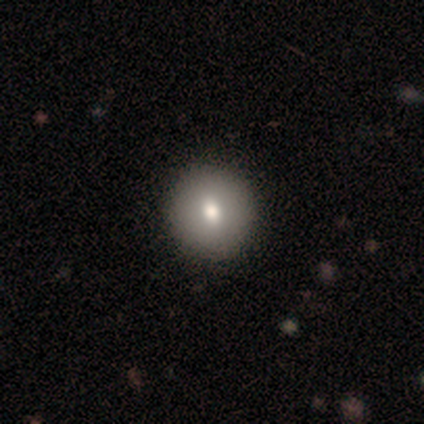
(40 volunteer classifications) A smooth galaxy with no disk features (70%) that is round (89%).

Vote fractions:
- Smooth or featured? smooth: 70% / featured or disk: 25% / star or artifact: 5%
- How rounded? round: 89% / in between: 11% / cigar-shaped: 0%
- Merging? none: 68% / minor disturbance: 0% / major disturbance: 0% / merger: 0%